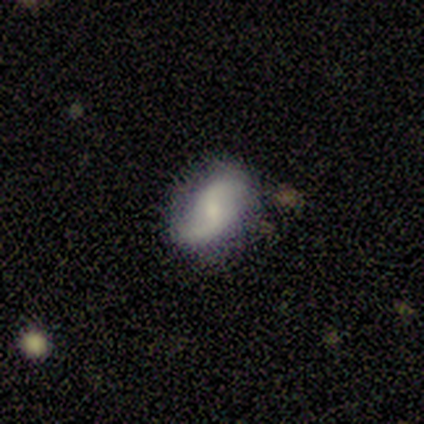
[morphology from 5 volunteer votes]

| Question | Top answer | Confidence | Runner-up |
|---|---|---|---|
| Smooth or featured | featured or disk | 80% | smooth (20%) |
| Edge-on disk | no | 100% | — |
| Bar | no | 75% | weak (25%) |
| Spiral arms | yes | 100% | — |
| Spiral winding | loose | 75% | tight (25%) |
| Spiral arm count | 2 | 100% | — |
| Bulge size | moderate | 50% | tied: small (50%) |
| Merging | none | 40% | tied: minor disturbance (40%) |